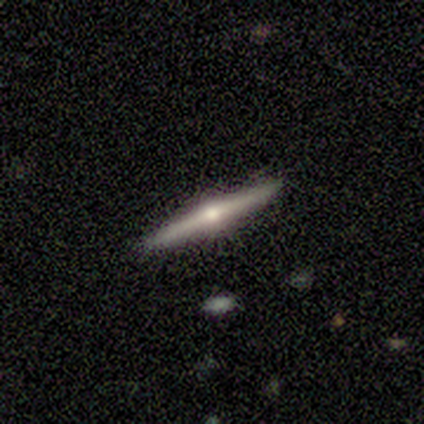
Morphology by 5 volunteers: Smooth or featured? featured or disk (80%)
Edge-on disk? yes (100%)
Edge-on bulge? rounded (100%)
Merging? none (100%)